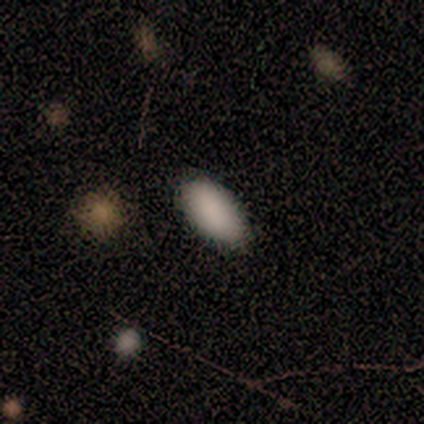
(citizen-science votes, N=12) Q: Smooth or featured?
A: smooth (83%); runner-up: featured or disk (8%)
Q: How rounded?
A: in between (100%)
Q: Merging?
A: none (73%); runner-up: minor disturbance (27%)